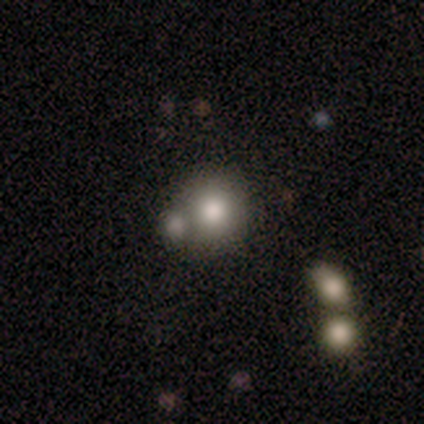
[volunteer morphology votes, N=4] Smooth or featured? 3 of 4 (75%) said smooth. How rounded? 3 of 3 (100%) said round. Merging? 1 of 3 (33%, tied with minor disturbance and merger) said none.